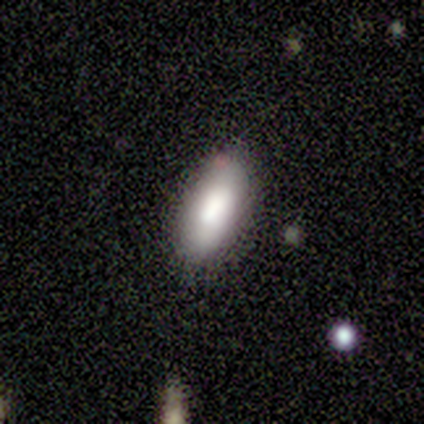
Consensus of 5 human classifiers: smooth_or_featured: smooth (p=1.00)
how_rounded: in between (p=1.00)
merging: none (p=1.00)